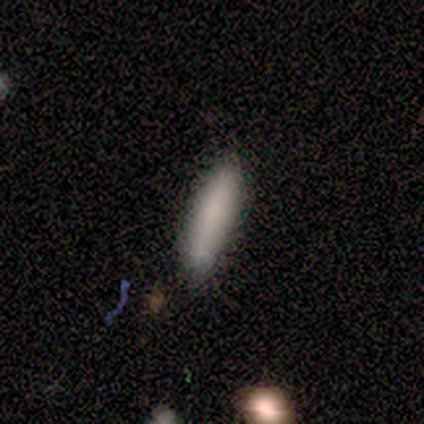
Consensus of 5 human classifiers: This is clearly a smooth galaxy (100%). How rounded: likely cigar-shaped (60%). Merging: marginally none (40%, tied with merger).